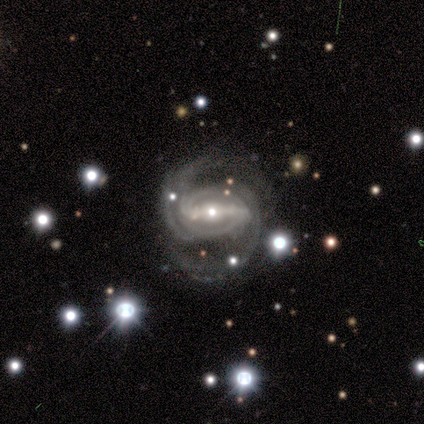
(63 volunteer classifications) This is clearly a featured or disk galaxy (97%). It is clearly not viewed edge-on (100%). Bar: clearly strong (87%). Spiral arm pattern: clearly yes (100%). Spiral arm count: likely 2 (72%). Spiral winding: possibly medium (56%). Central bulge: possibly moderate (46%). Merging: likely none (70%).